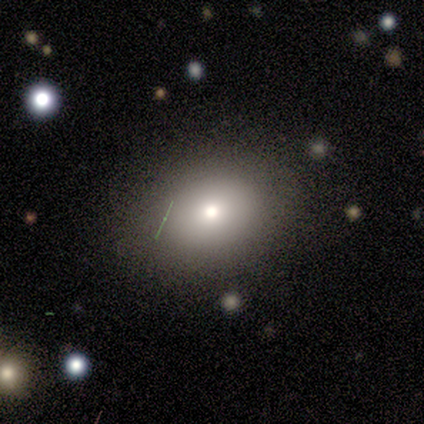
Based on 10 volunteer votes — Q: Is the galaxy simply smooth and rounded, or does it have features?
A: smooth — 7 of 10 (70%).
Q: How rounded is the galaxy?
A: in between — 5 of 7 (71%).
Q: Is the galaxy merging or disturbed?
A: none — 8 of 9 (89%).